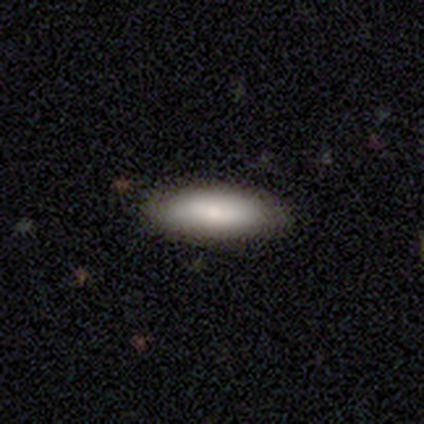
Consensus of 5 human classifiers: Q: Smooth or featured?
A: smooth (80%); runner-up: star or artifact (20%)
Q: How rounded?
A: in between (50%); tied with: cigar-shaped (50%)
Q: Merging?
A: none (75%); runner-up: minor disturbance (25%)